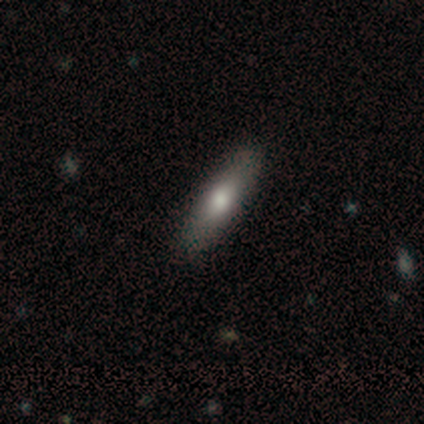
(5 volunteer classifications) A smooth galaxy with no disk features (80%) that is in between round and cigar-shaped (50%, tied with cigar-shaped). Merging: none (80%).